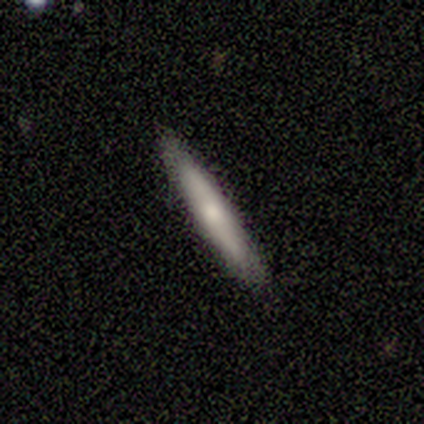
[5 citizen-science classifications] Smooth or featured?
  - featured or disk: 60% *
  - smooth: 40%
  - star or artifact: 0%
Edge-on disk?
  - yes: 100% *
  - no: 0%
Edge-on bulge?
  - none: 100% *
  - boxy: 0%
  - rounded: 0%
Merging?
  - none: 80% *
  - minor disturbance: 20%
  - major disturbance: 0%
  - merger: 0%